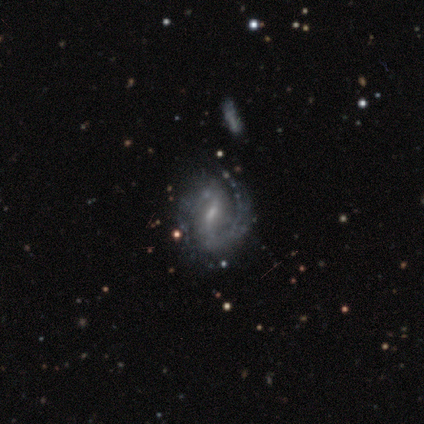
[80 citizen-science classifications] This is clearly a featured or disk galaxy (90%). It is clearly not viewed edge-on (99%). Bar: likely weak (75%). Spiral arm pattern: clearly yes (97%). Spiral arm count: likely 2 (67%). Spiral winding: marginally tight (43%, tied with medium). Central bulge: possibly small (56%). Merging: possibly none (56%).